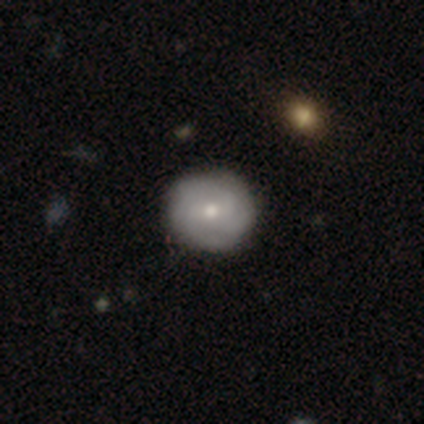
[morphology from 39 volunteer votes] Overall: featured or disk (54%; smooth 41%). Edge-on disk: no (100%). Bar: no (57%; weak 43%). Spiral arms: yes (86%). Spiral arm count: can't tell (44%; 4 22%). Spiral winding: tight (78%). Bulge size: moderate (52%; small 43%). Merging: none (97%).